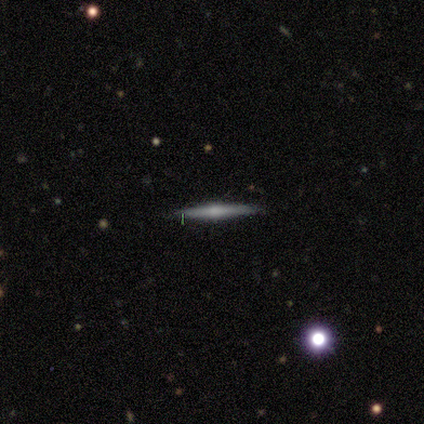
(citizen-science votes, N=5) Q: Smooth or featured?
A: featured or disk (60%); runner-up: smooth (20%)
Q: Edge-on disk?
A: yes (100%)
Q: Edge-on bulge?
A: rounded (100%)
Q: Merging?
A: none (100%)